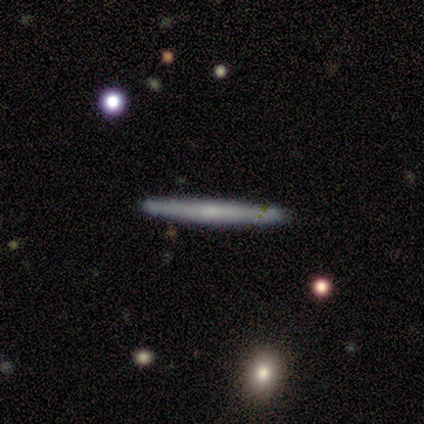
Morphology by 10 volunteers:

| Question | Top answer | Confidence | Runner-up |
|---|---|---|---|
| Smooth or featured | smooth | 40% | tied: featured or disk (40%) |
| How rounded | cigar-shaped | 100% | — |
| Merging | none | 100% | — |